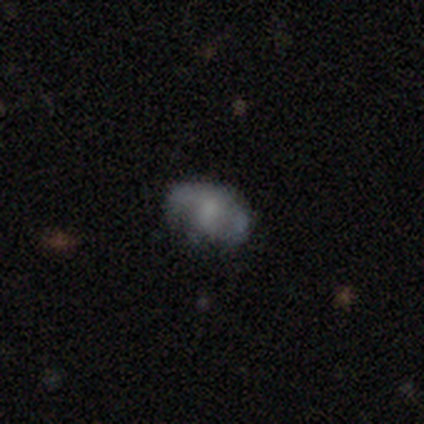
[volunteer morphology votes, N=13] smooth-or-featured: featured or disk: 54% | smooth: 46% | star or artifact: 0%
  disk-edge-on: no: 100% | yes: 0%
    bar: no: 86% | weak: 14% | strong: 0%
    has-spiral-arms: no: 71% | yes: 29%
    bulge-size: none: 57% | small: 29% | large: 14% | dominant: 0% | moderate: 0%
  merging: none: 77% | minor disturbance: 15% | major disturbance: 8% | merger: 0%